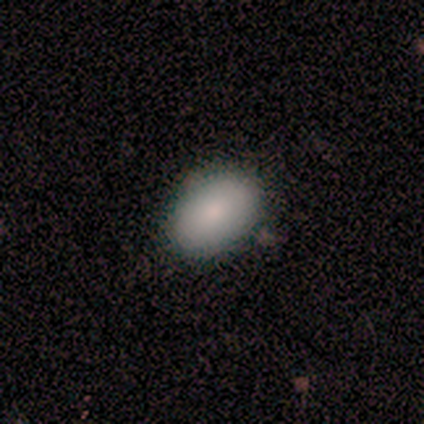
Smooth or featured: smooth — 50% (tied with featured or disk — 50%)
How rounded: in between — 100%
Merging: none — 75% (major disturbance — 25%)